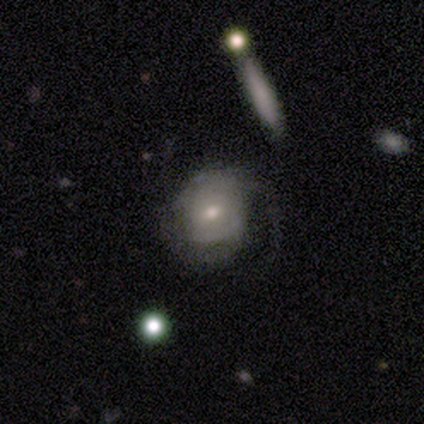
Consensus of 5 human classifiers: Volunteers were most divided on "spiral winding" (2-way tie): tight: 50%, medium: 50%, loose: 0%. More confident: edge-on disk — no (100%); bar — no (100%); spiral arm count — 2 (100%); bulge size — moderate (100%); spiral arms — yes (67%); smooth or featured — featured or disk (60%); merging — minor disturbance (60%).